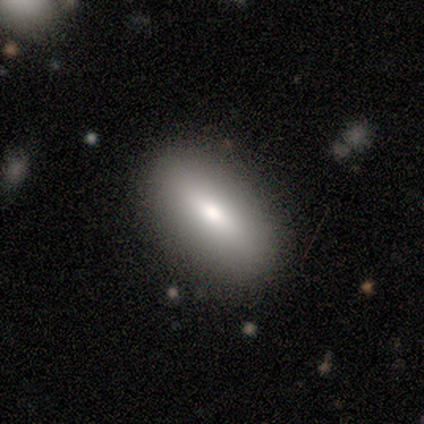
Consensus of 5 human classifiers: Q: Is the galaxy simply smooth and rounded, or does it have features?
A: smooth — 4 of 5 (80%).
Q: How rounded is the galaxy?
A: in between — 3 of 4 (75%).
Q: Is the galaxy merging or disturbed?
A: none — 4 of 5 (80%).